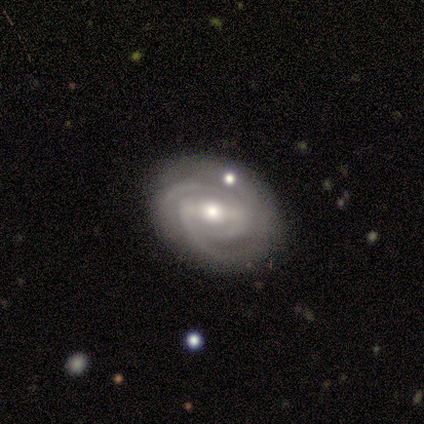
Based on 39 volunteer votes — Overall: featured or disk (95%). Edge-on disk: no (97%). Bar: weak (53%; strong 39%). Spiral arms: yes (100%). Spiral arm count: 3 (47%; 2 42%). Spiral winding: tight (72%). Bulge size: moderate (56%; small 36%). Merging: none (84%).